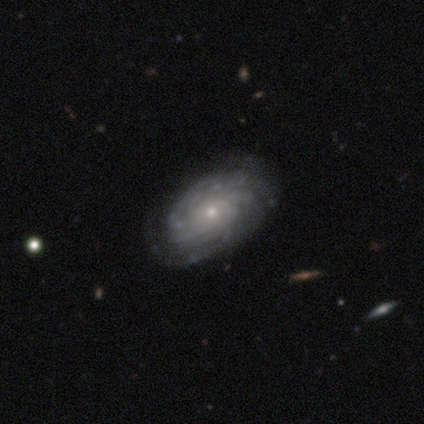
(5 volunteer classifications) Q: Smooth or featured?
A: featured or disk (80%); runner-up: star or artifact (20%)
Q: Edge-on disk?
A: no (100%)
Q: Bar?
A: no (100%)
Q: Spiral arms?
A: yes (100%)
Q: Spiral winding?
A: tight (75%); runner-up: medium (25%)
Q: Spiral arm count?
A: can't tell (75%); runner-up: more than 4 (25%)
Q: Bulge size?
A: small (100%)
Q: Merging?
A: none (100%)